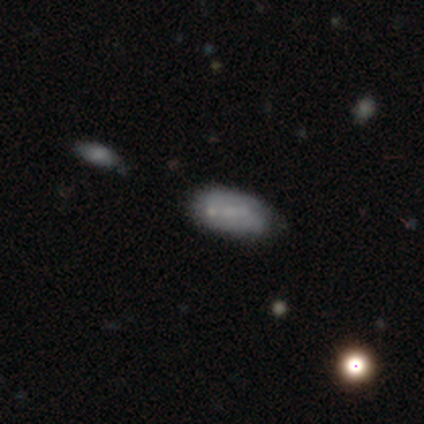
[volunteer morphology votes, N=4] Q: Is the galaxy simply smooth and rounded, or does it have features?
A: smooth — 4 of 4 (100%).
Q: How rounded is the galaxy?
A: in between — 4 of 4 (100%).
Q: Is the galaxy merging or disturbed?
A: none — 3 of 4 (75%).